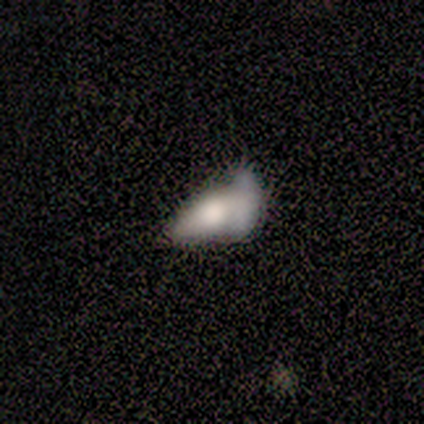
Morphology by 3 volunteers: Overall: featured or disk (100%). Edge-on disk: no (67%; yes 33%). Bar: no (100%). Spiral arms: no (100%). Bulge size: large (50%, tied with none). Merging: minor disturbance (67%; major disturbance 33%).